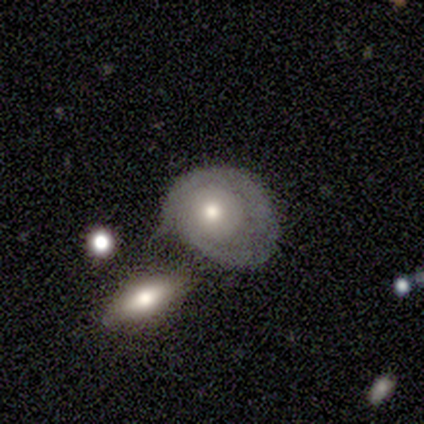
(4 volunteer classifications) This appears to be a smooth galaxy with no disk features (75%) that is in between round and cigar-shaped (67%). Merging: minor disturbance (50%).